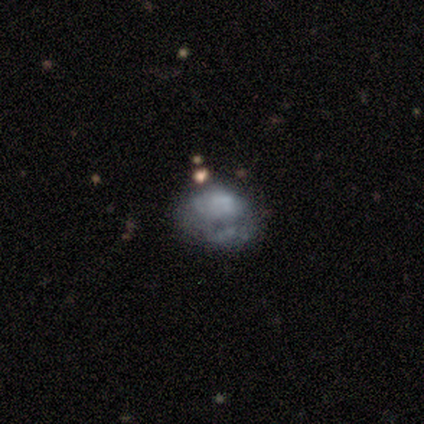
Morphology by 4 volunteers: Smooth or featured? 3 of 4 (75%) said featured or disk. Edge-on disk? 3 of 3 (100%) said no. Bar? 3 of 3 (100%) said no. Spiral arms? 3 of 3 (100%) said no. Bulge size? 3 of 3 (100%) said none. Merging? 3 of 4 (75%) said none.